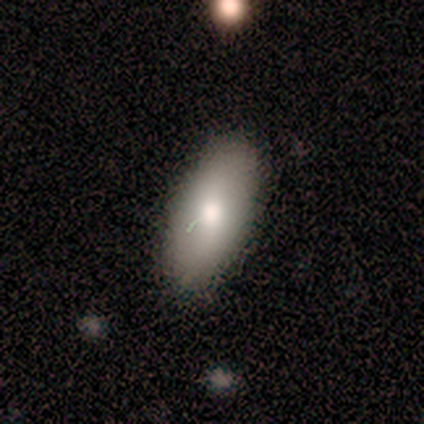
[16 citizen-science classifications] Overall: smooth (88%). How rounded: in between (93%). Merging: none (75%).